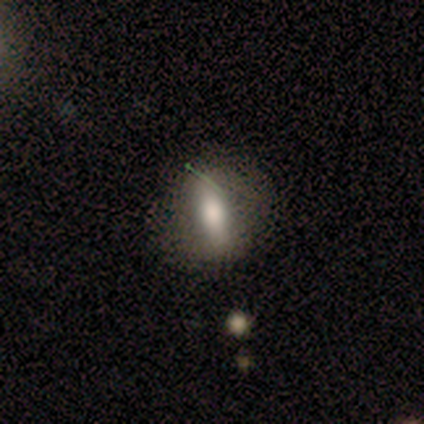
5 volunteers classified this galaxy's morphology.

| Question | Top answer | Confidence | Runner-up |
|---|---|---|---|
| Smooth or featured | smooth | 60% | featured or disk (40%) |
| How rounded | round | 67% | in between (33%) |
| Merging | none | 80% | minor disturbance (20%) |